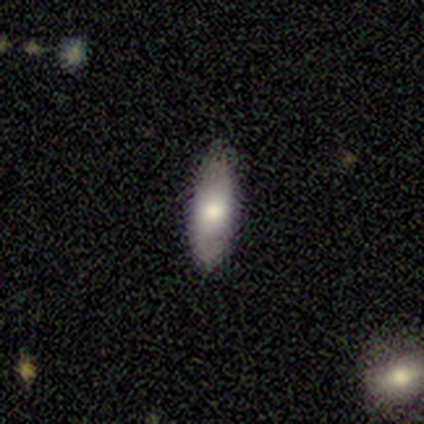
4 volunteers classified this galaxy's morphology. Smooth or featured?
  - smooth: 75% *
  - featured or disk: 25%
  - star or artifact: 0%
How rounded?
  - in between: 67% *
  - cigar-shaped: 33%
  - round: 0%
Merging?
  - none: 75% *
  - major disturbance: 25%
  - minor disturbance: 0%
  - merger: 0%